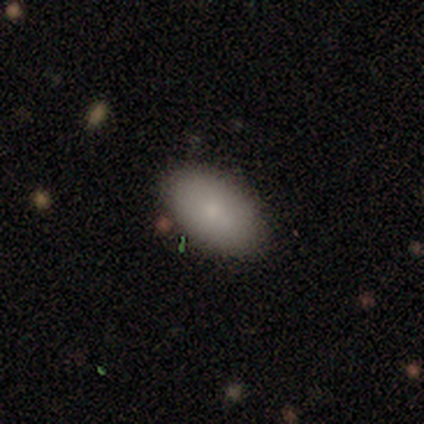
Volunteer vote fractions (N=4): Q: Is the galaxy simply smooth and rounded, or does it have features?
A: smooth — 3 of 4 (75%).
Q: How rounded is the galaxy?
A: in between — 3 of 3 (100%).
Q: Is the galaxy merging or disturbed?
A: none — 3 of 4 (75%).